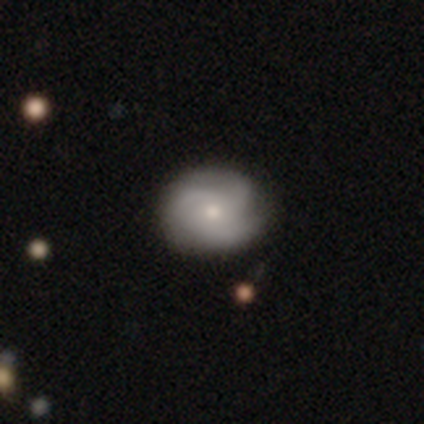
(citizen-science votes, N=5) Smooth or featured? featured or disk (80%)
Edge-on disk? no (100%)
Bar? no (75%)
Spiral arms? yes (75%)
Spiral winding? medium (100%)
Spiral arm count? 3 (100%)
Bulge size? small (75%)
Merging? none (80%)